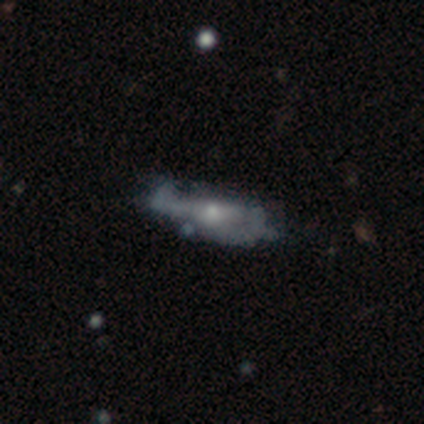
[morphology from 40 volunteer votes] Smooth or featured: featured or disk — 55% (smooth — 40%)
Edge-on disk: no — 82% (yes — 18%)
Bar: no — 61% (weak — 28%)
Spiral arms: yes — 50% (tied with no — 50%)
Spiral winding: loose — 56% (tight — 44%)
Spiral arm count: 2 — 56% (can't tell — 44%)
Bulge size: small — 56% (moderate — 39%)
Merging: major disturbance — 39% (none — 29%)